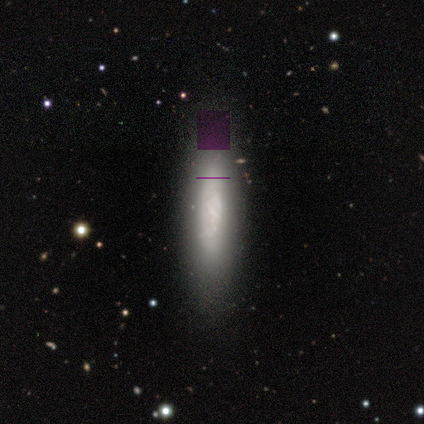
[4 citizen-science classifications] Q: Smooth or featured?
A: featured or disk (100%)
Q: Edge-on disk?
A: yes (75%); runner-up: no (25%)
Q: Edge-on bulge?
A: none (67%); runner-up: boxy (33%)
Q: Merging?
A: none (75%); runner-up: major disturbance (25%)